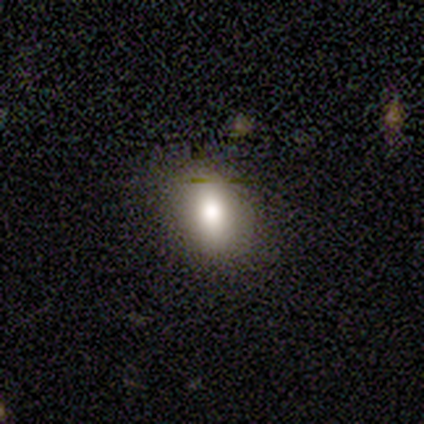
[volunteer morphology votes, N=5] A smooth galaxy with no disk features (80%) that is in between round and cigar-shaped (75%). Merging: none (100%).